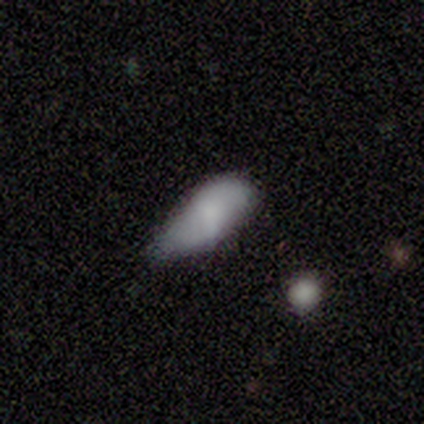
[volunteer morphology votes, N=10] This appears to be a smooth galaxy with no disk features (70%) that is in between round and cigar-shaped (100%). Merging: minor disturbance (75%).